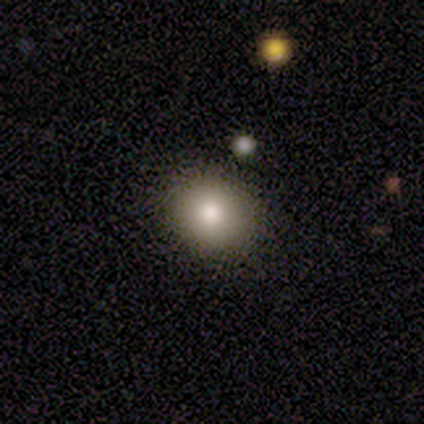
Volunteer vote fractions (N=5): smooth 60%, featured or disk 20%, star or artifact 20%. Down the decision tree: how rounded — round (100%); merging — none (75%).